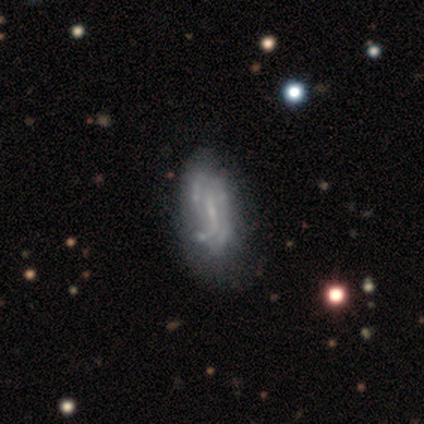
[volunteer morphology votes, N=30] This is likely a featured or disk galaxy (70%). It is clearly not viewed edge-on (81%). Bar: possibly weak (53%). Spiral arm pattern: possibly yes (53%). Spiral arm count: likely can't tell (78%). Spiral winding: marginally medium (44%). Central bulge: possibly small (59%). Merging: possibly none (58%).